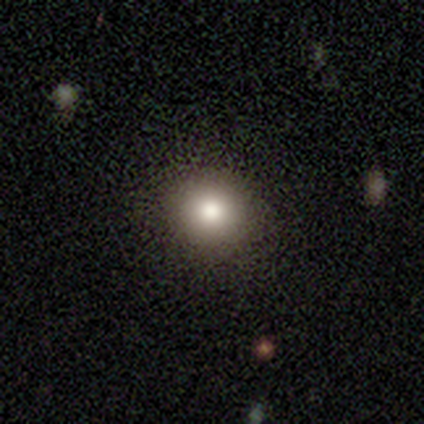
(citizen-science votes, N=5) smooth_or_featured: smooth (p=0.80) [alt: star or artifact p=0.20]
how_rounded: round (p=0.75) [alt: in between p=0.25]
merging: none (p=1.00)